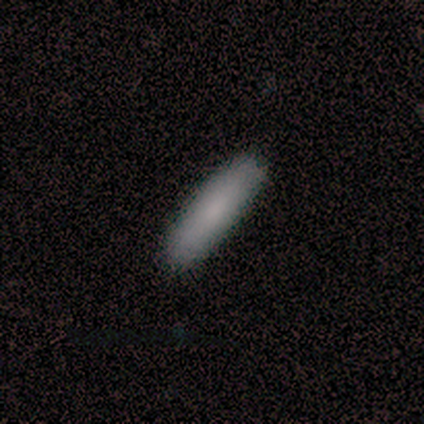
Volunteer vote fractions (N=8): Morphology: type=smooth (62%); roundness=cigar-shaped (80%); merging=none (86%).